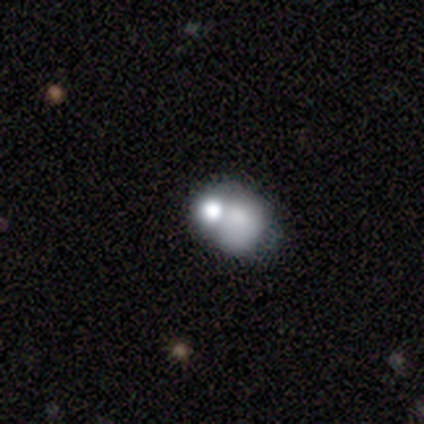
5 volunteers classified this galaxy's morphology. Volunteers were most divided on "how rounded" (2-way tie): round: 50%, in between: 50%, cigar-shaped: 0%. More confident: smooth or featured — smooth (80%); merging — merger (75%).